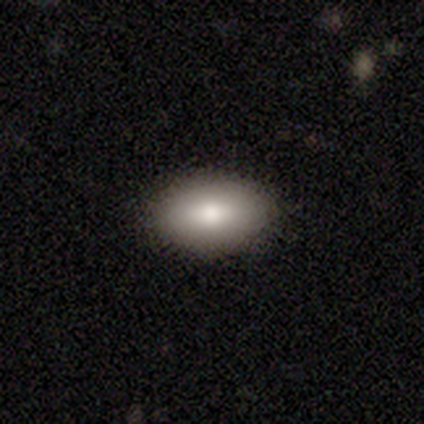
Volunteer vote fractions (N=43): A smooth galaxy with no disk features (88%) that is in between round and cigar-shaped (95%). Merging: none (88%).